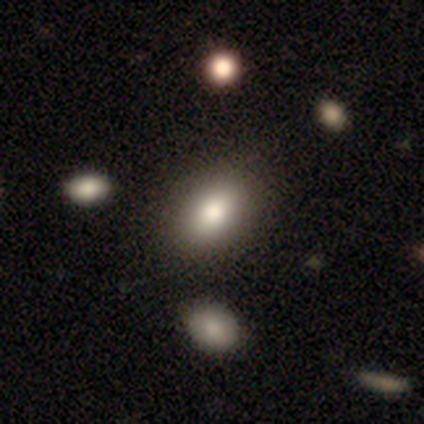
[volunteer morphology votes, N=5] Smooth or featured: smooth — 80% (star or artifact — 20%)
How rounded: in between — 100%
Merging: none — 75% (minor disturbance — 25%)